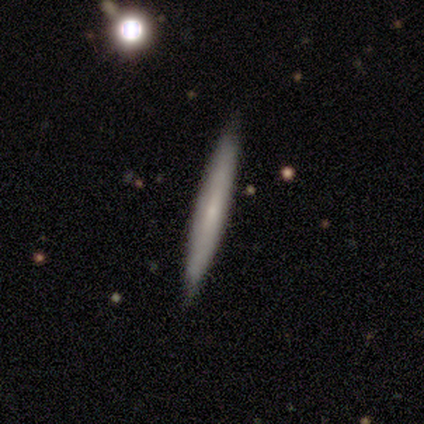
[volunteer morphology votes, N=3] smooth_or_featured: featured or disk (p=0.67) [alt: smooth p=0.33]
disk_edge_on: yes (p=0.50) [tied with: no p=0.50]
edge_on_bulge: none (p=1.00)
merging: none (p=1.00)